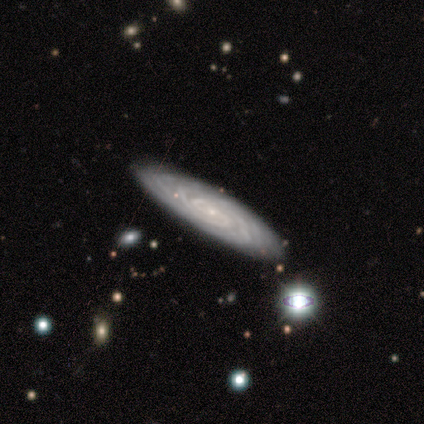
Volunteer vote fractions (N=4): Overall: featured or disk (100%). Edge-on disk: yes (50%, tied with no). Edge-on bulge: none (50%, tied with rounded). Merging: none (100%).